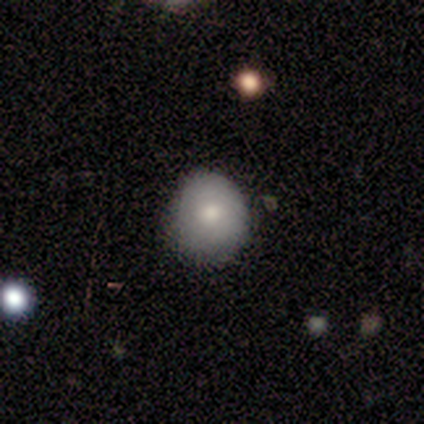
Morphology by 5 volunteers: A smooth galaxy with no disk features (80%) that is round (75%). Merging: none (80%).